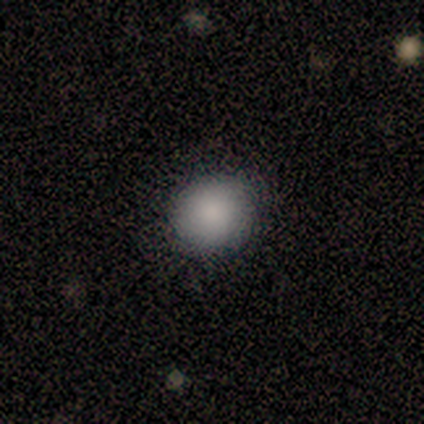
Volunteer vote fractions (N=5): Q: Smooth or featured?
A: smooth (80%); runner-up: featured or disk (20%)
Q: How rounded?
A: round (75%); runner-up: in between (25%)
Q: Merging?
A: none (100%)